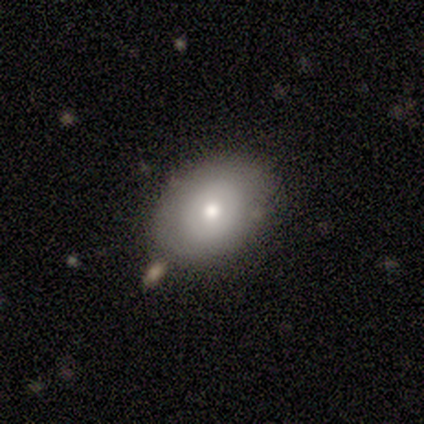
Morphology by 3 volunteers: type=smooth (33%, tied with featured or disk and star or artifact); roundness=round (100%); merging=none (100%).